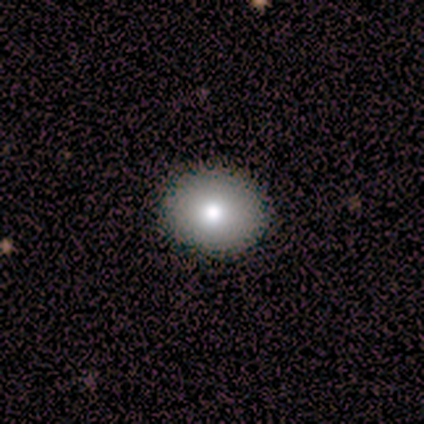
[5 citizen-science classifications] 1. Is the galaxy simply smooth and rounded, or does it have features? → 80% smooth, 20% star or artifact, 0% featured or disk.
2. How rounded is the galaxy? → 75% round, 25% in between, 0% cigar-shaped.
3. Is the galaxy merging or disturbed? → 100% none, 0% minor disturbance, 0% major disturbance, 0% merger.